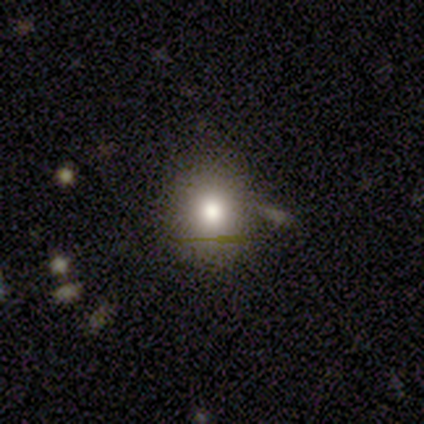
Smooth or featured?
  - smooth: 76% *
  - star or artifact: 16%
  - featured or disk: 8%
How rounded?
  - round: 79% *
  - in between: 17%
  - cigar-shaped: 3%
Merging?
  - none: 72% *
  - minor disturbance: 25%
  - merger: 3%
  - major disturbance: 0%